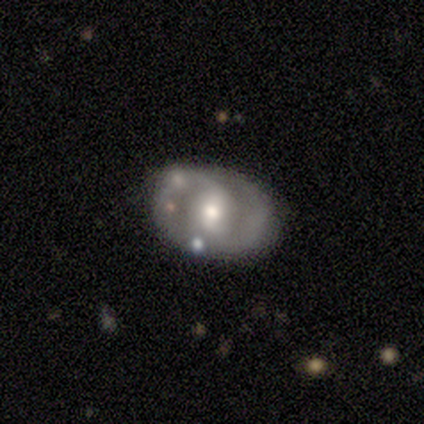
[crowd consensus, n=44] A featured or disk galaxy (84%) with a weak bar (44%), 2 (100%) medium (43%) spiral arms (78%) and a moderate central bulge (56%). Merging: none (71%).